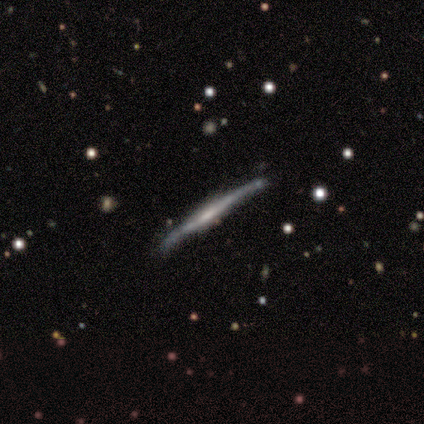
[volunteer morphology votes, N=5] Q: Smooth or featured?
A: featured or disk (60%); runner-up: smooth (40%)
Q: Edge-on disk?
A: yes (100%)
Q: Edge-on bulge?
A: boxy (33%); tied with: none (33%); rounded (33%)
Q: Merging?
A: none (100%)